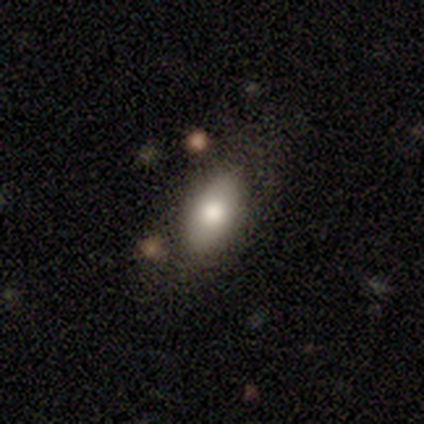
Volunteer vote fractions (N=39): A smooth galaxy with no disk features (79%) that is in between round and cigar-shaped (90%). Merging: none (50%).